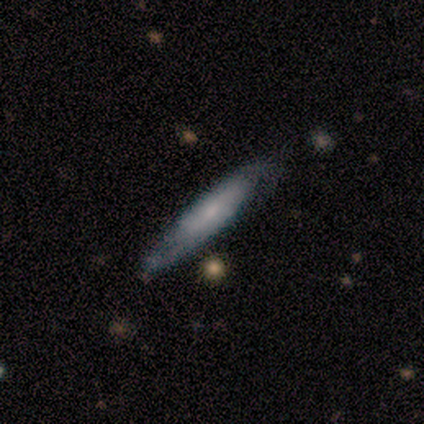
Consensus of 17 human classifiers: This appears to be a smooth galaxy with no disk features (59%) that is cigar-shaped (80%). Merging: none (65%).